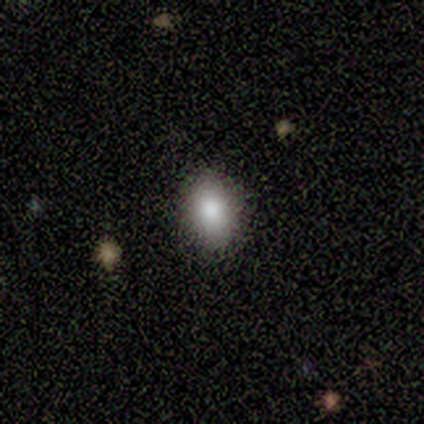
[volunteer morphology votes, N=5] A smooth galaxy with no disk features (80%) that is in between round and cigar-shaped (100%).

Vote fractions:
- Smooth or featured? smooth: 80% / star or artifact: 20% / featured or disk: 0%
- How rounded? in between: 100% / round: 0% / cigar-shaped: 0%
- Merging? none: 100% / minor disturbance: 0% / major disturbance: 0% / merger: 0%